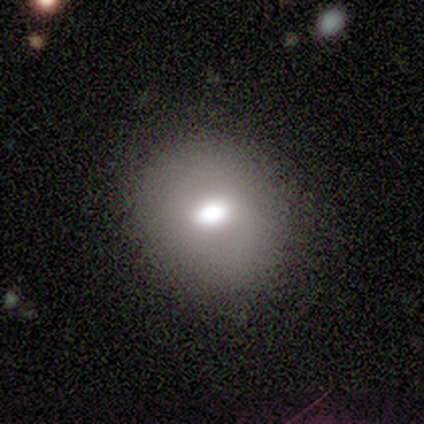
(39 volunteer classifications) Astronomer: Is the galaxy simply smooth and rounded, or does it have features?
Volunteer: smooth — 69%.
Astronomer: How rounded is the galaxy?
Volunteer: round — 59% (runner-up: in between, 41%).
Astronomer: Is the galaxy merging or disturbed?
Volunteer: none — 76%.